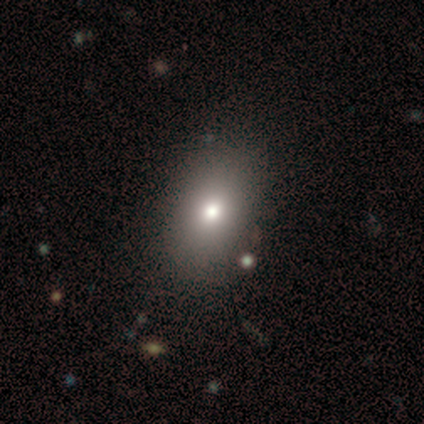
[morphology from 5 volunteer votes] A smooth galaxy with no disk features (100%) that is in between round and cigar-shaped (80%). Merging: none (100%).